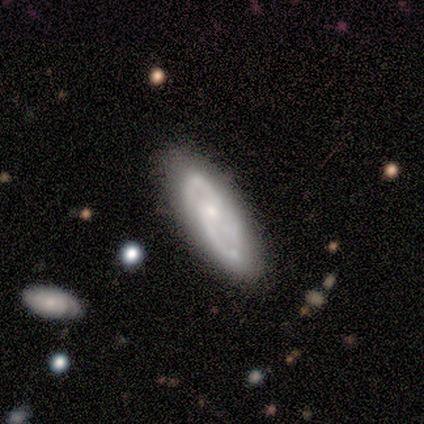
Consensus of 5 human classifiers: Smooth or featured?
  - featured or disk: 60% *
  - smooth: 40%
  - star or artifact: 0%
Edge-on disk?
  - no: 67% *
  - yes: 33%
Bar?
  - weak: 50% * (tied)
  - no: 50% * (tied)
  - strong: 0%
Spiral arms?
  - yes: 100% *
  - no: 0%
Spiral winding?
  - medium: 100% *
  - tight: 0%
  - loose: 0%
Spiral arm count?
  - 3: 100% *
  - 1: 0%
  - 2: 0%
  - 4: 0%
  - more than 4: 0%
  - can't tell: 0%
Bulge size?
  - small: 100% *
  - dominant: 0%
  - large: 0%
  - moderate: 0%
  - none: 0%
Merging?
  - none: 60% *
  - minor disturbance: 40%
  - major disturbance: 0%
  - merger: 0%